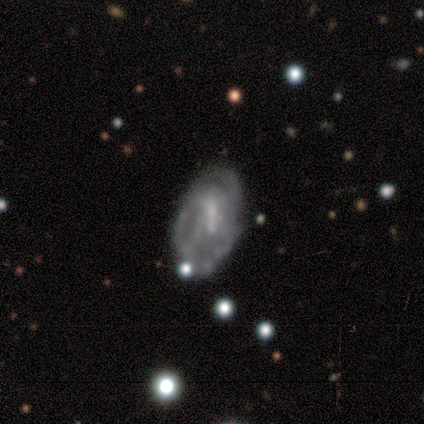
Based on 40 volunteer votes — Smooth or featured? 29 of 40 (72%) said featured or disk. Edge-on disk? 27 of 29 (93%) said no. Bar? 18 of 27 (67%) said weak. Spiral arms? 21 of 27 (78%) said yes. Spiral winding? 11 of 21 (52%) said tight. Spiral arm count? 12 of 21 (57%) said can't tell. Bulge size? 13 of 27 (48%) said small. Merging? 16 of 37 (43%) said none.